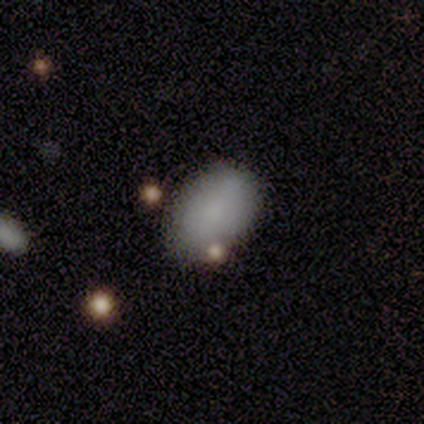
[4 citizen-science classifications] This is clearly a smooth galaxy (100%). How rounded: possibly round (50%, tied with in between). Merging: clearly none (100%).